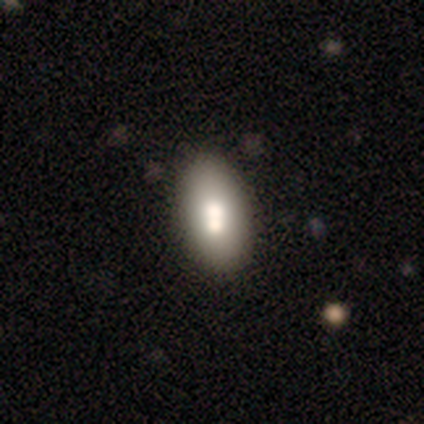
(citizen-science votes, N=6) smooth 67%, featured or disk 17%, star or artifact 17%. Down the decision tree: how rounded — in between (100%); merging — none (40%).